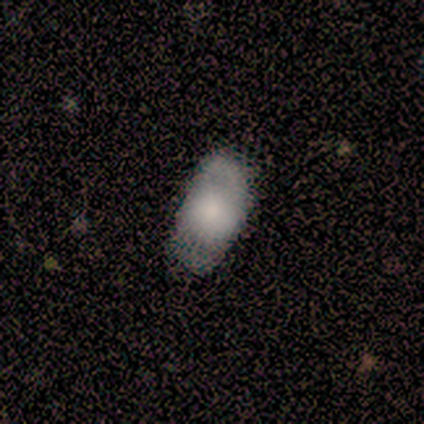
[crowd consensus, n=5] A smooth galaxy with no disk features (80%) that is in between round and cigar-shaped (50%).

Vote fractions:
- Smooth or featured? smooth: 80% / featured or disk: 20% / star or artifact: 0%
- How rounded? in between: 50% / round: 25% / cigar-shaped: 25%
- Merging? none: 60% / major disturbance: 20% / merger: 20% / minor disturbance: 0%